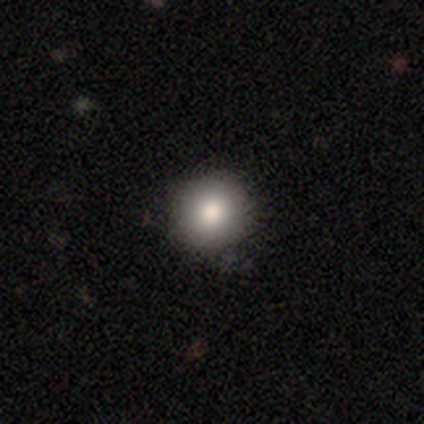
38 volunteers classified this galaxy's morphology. Overall: smooth (84%). How rounded: round (100%). Merging: none (88%).